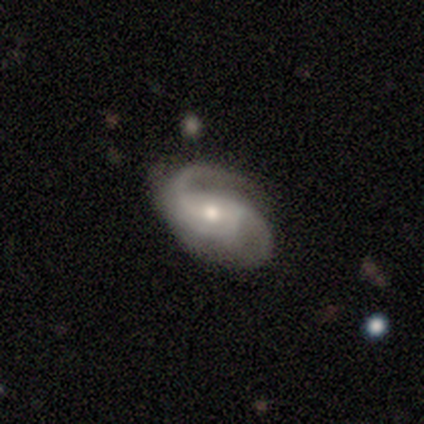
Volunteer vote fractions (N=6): smooth-or-featured: featured or disk: 100% | smooth: 0% | star or artifact: 0%
  disk-edge-on: no: 83% | yes: 17%
    bar: strong: 40% (tied) | no: 40% (tied) | weak: 20%
    has-spiral-arms: yes: 80% | no: 20%
      spiral-winding: medium: 50% (tied) | loose: 50% (tied) | tight: 0%
      spiral-arm-count: 2: 100% | 1: 0% | 3: 0% | 4: 0% | more than 4: 0% | can't tell: 0%
    bulge-size: moderate: 100% | dominant: 0% | large: 0% | small: 0% | none: 0%
  merging: none: 67% | minor disturbance: 17% | major disturbance: 17% | merger: 0%